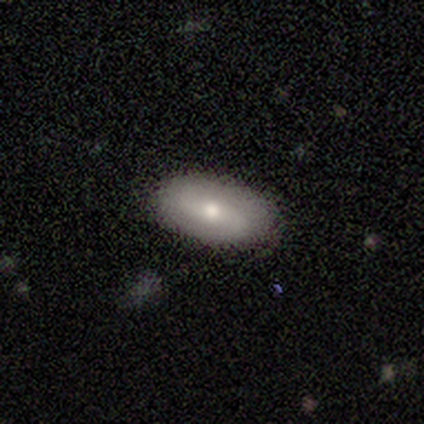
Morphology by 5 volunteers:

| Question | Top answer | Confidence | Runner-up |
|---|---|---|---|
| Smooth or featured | smooth | 60% | featured or disk (20%) |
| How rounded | in between | 100% | — |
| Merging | none | 100% | — |